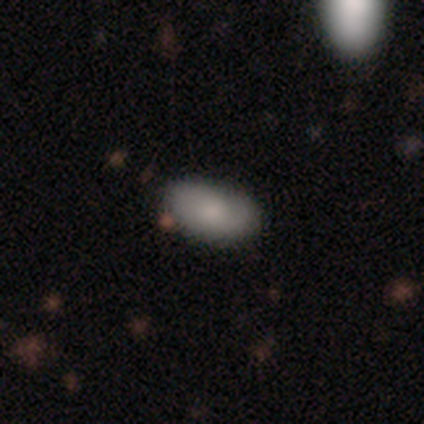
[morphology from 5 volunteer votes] Overall: smooth (80%). How rounded: in between (100%). Merging: none (80%).